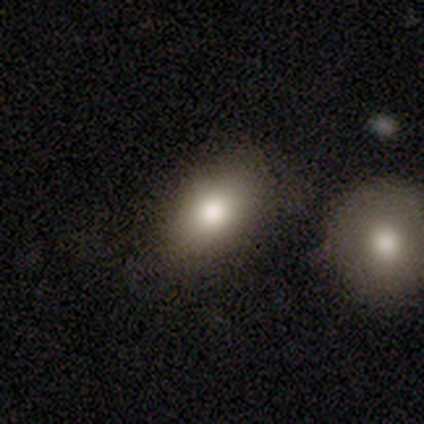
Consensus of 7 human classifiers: smooth 100%, featured or disk 0%, star or artifact 0%. Down the decision tree: how rounded — in between (86%); merging — none (100%).